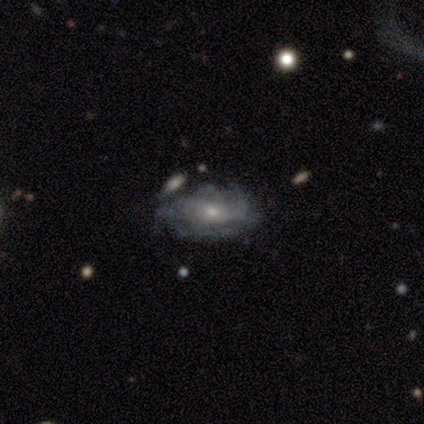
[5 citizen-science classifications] smooth-or-featured: featured or disk: 60% | smooth: 40% | star or artifact: 0%
  disk-edge-on: no: 100% | yes: 0%
    bar: no: 67% | weak: 33% | strong: 0%
    has-spiral-arms: yes: 100% | no: 0%
      spiral-winding: medium: 67% | tight: 33% | loose: 0%
      spiral-arm-count: can't tell: 100% | 1: 0% | 2: 0% | 3: 0% | 4: 0% | more than 4: 0%
    bulge-size: small: 100% | dominant: 0% | large: 0% | moderate: 0% | none: 0%
  merging: none: 80% | minor disturbance: 20% | major disturbance: 0% | merger: 0%